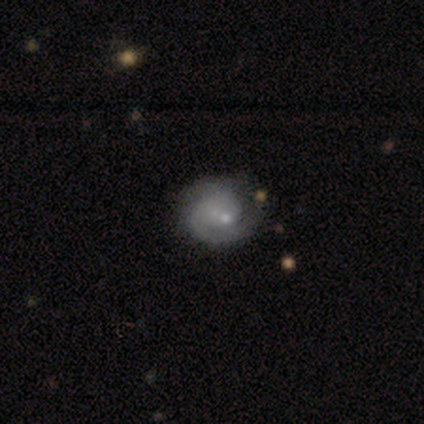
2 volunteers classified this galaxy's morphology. Smooth or featured? 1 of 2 (50%, tied with featured or disk) said smooth. How rounded? 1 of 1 (100%) said round. Merging? 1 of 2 (50%, tied with minor disturbance) said none.